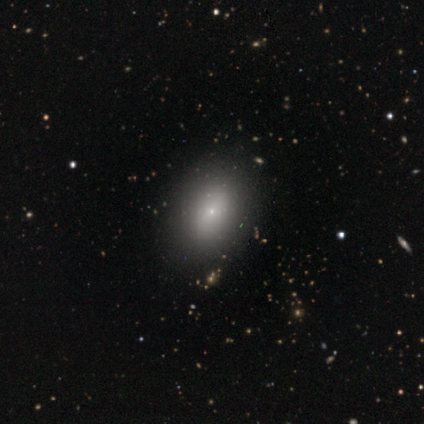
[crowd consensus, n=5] Smooth or featured? 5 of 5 (100%) said smooth. How rounded? 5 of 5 (100%) said in between. Merging? 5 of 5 (100%) said none.